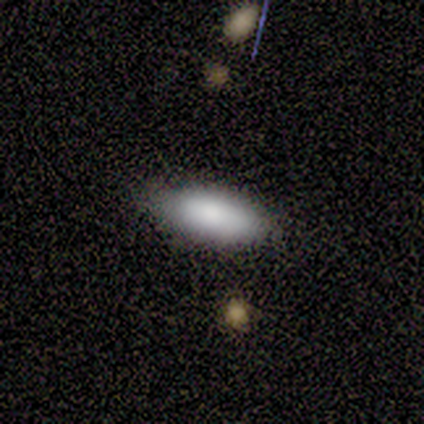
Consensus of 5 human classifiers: Smooth or featured?
  - smooth: 80% *
  - star or artifact: 20%
  - featured or disk: 0%
How rounded?
  - in between: 75% *
  - cigar-shaped: 25%
  - round: 0%
Merging?
  - none: 75% *
  - minor disturbance: 25%
  - major disturbance: 0%
  - merger: 0%